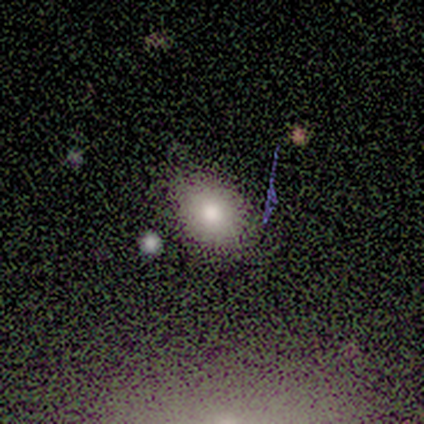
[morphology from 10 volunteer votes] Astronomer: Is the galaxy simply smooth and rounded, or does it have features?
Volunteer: smooth — 90%.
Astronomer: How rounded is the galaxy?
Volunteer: in between — 56% (runner-up: round, 44%).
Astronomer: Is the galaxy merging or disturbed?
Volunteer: none — 90%.